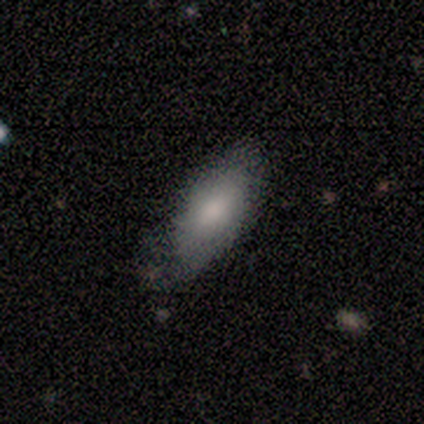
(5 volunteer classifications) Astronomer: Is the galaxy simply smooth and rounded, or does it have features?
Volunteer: smooth — 100%.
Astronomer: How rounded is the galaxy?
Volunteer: in between — 100%.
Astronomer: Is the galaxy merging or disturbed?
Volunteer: minor disturbance — 60% (runner-up: none, 40%).